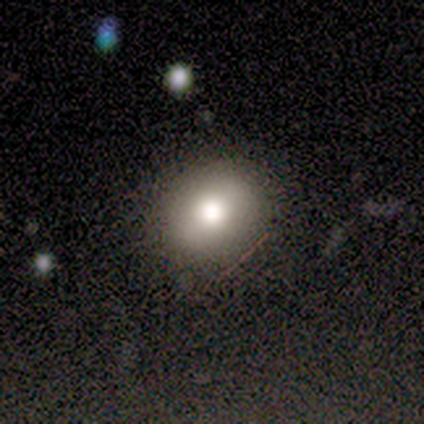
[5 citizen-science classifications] This is marginally a smooth galaxy (40%, tied with featured or disk). How rounded: clearly in between (100%). Merging: clearly none (100%).